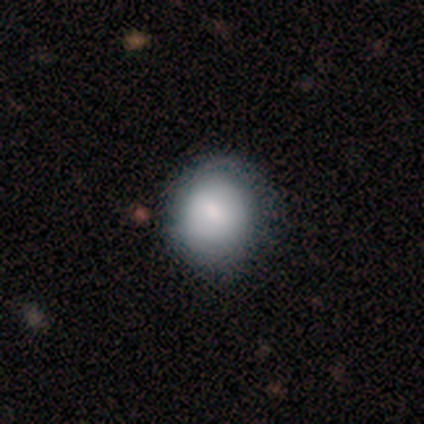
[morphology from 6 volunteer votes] Q: Smooth or featured?
A: smooth (83%); runner-up: featured or disk (17%)
Q: How rounded?
A: round (80%); runner-up: in between (20%)
Q: Merging?
A: none (100%)